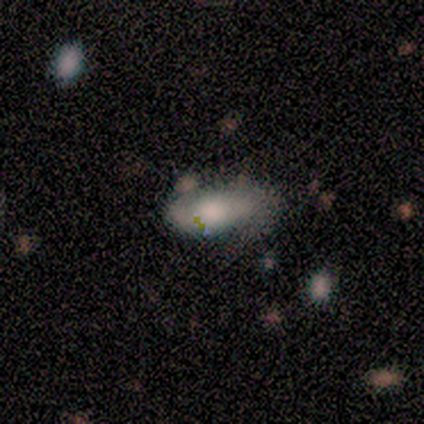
smooth_or_featured: smooth (p=0.75) [alt: featured or disk p=0.25]
how_rounded: in between (p=0.67) [alt: cigar-shaped p=0.33]
merging: minor disturbance (p=0.50) [alt: none p=0.25]